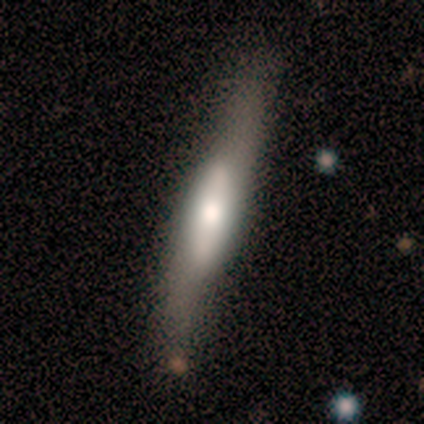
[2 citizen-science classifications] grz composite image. It shows a smooth galaxy with no disk features (50%, tied with featured or disk) that is cigar-shaped (100%). Merging: none (50%, tied with minor disturbance).